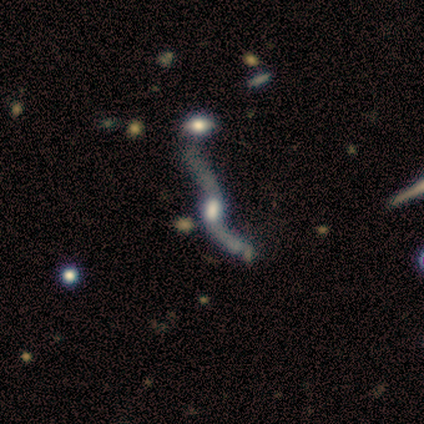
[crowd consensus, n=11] smooth_or_featured: featured or disk (p=0.82) [alt: star or artifact p=0.18]
disk_edge_on: no (p=0.78) [alt: yes p=0.22]
bar: no (p=0.86) [alt: weak p=0.14]
has_spiral_arms: yes (p=0.86) [alt: no p=0.14]
spiral_winding: loose (p=1.00)
spiral_arm_count: 2 (p=1.00)
bulge_size: moderate (p=0.43) [alt: dominant p=0.14]
merging: none (p=0.33) [tied with: merger p=0.33]